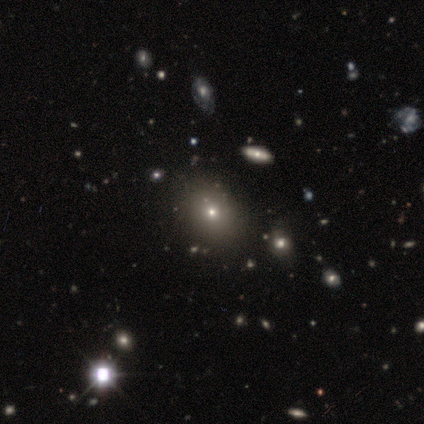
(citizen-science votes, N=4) Smooth or featured? 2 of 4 (50%) said smooth. How rounded? 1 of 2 (50%, tied with in between) said round. Merging? 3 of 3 (100%) said none.